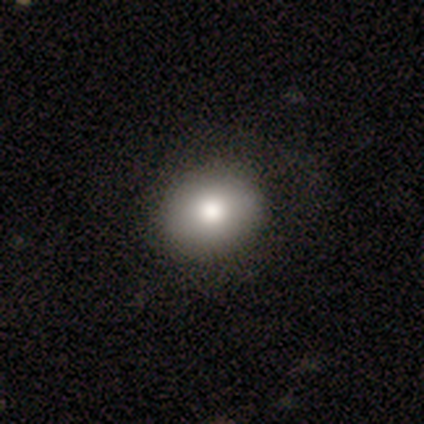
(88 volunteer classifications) Volunteers were most divided on "how rounded": round: 60%, in between: 40%, cigar-shaped: 0%. More confident: merging — none (82%); smooth or featured — smooth (82%).